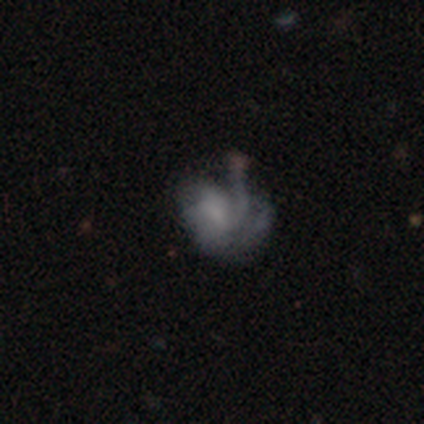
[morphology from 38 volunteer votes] This is likely a featured or disk galaxy (66%). It is clearly not viewed edge-on (96%). Bar: clearly no (92%). Spiral arm pattern: clearly yes (88%). Spiral arm count: marginally 2 (33%, tied with can't tell). Spiral winding: marginally medium (43%). Central bulge: possibly none (46%). Merging: possibly major disturbance (49%).